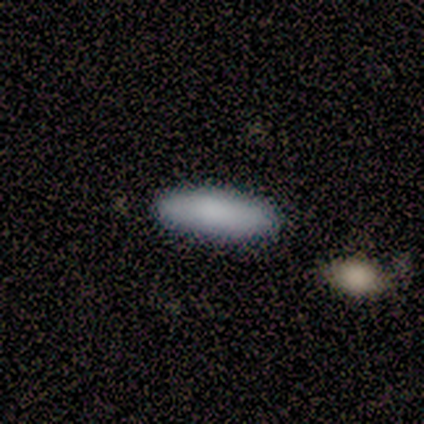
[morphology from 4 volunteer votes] smooth_or_featured: smooth (p=1.00)
how_rounded: cigar-shaped (p=0.75) [alt: in between p=0.25]
merging: none (p=1.00)